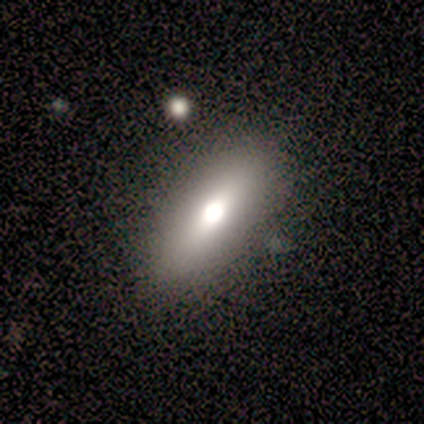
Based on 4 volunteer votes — A smooth galaxy with no disk features (75%) that is in between round and cigar-shaped (67%).

Vote fractions:
- Smooth or featured? smooth: 75% / featured or disk: 25% / star or artifact: 0%
- How rounded? in between: 67% / cigar-shaped: 33% / round: 0%
- Merging? none: 50% / minor disturbance: 25% / major disturbance: 25% / merger: 0%